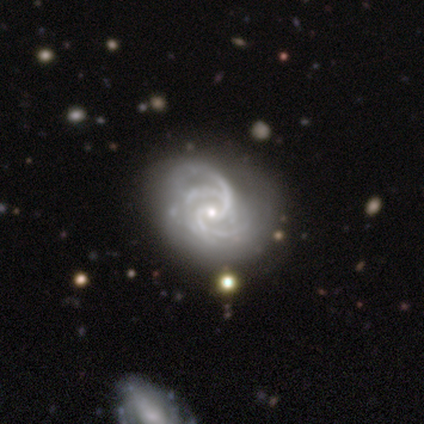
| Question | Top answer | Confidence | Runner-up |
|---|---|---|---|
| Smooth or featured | featured or disk | 80% | smooth (20%) |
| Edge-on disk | no | 100% | — |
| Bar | no | 75% | weak (25%) |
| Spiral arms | yes | 100% | — |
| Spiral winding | tight | 50% | tied: medium (50%) |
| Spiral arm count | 4 | 50% | 2 (25%) |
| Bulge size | small | 75% | moderate (25%) |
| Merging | minor disturbance | 60% | none (40%) |